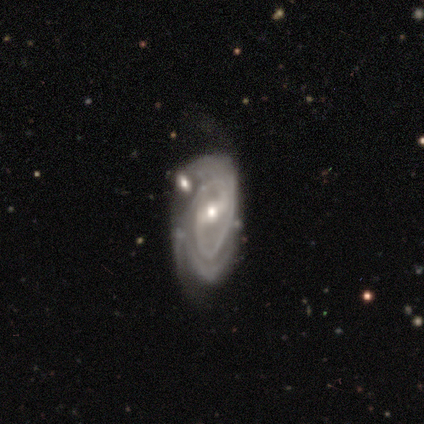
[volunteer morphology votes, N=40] Smooth or featured?
  - featured or disk: 90% *
  - smooth: 10%
  - star or artifact: 0%
Edge-on disk?
  - no: 97% *
  - yes: 3%
Bar?
  - weak: 60% *
  - strong: 23%
  - no: 17%
Spiral arms?
  - yes: 86% *
  - no: 14%
Spiral winding?
  - tight: 67% *
  - medium: 30%
  - loose: 3%
Spiral arm count?
  - 2: 37% *
  - can't tell: 27%
  - 3: 20%
  - more than 4: 10%
  - 4: 7%
  - 1: 0%
Bulge size?
  - moderate: 57% *
  - small: 43%
  - dominant: 0%
  - large: 0%
  - none: 0%
Merging?
  - none: 38% *
  - minor disturbance: 25%
  - major disturbance: 20%
  - merger: 18%